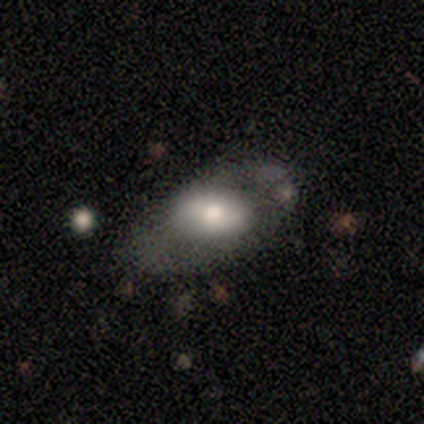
Q: Smooth or featured?
A: featured or disk (80%); runner-up: smooth (20%)
Q: Edge-on disk?
A: no (100%)
Q: Bar?
A: no (75%); runner-up: weak (25%)
Q: Spiral arms?
A: no (100%)
Q: Bulge size?
A: moderate (100%)
Q: Merging?
A: minor disturbance (60%); runner-up: none (20%)